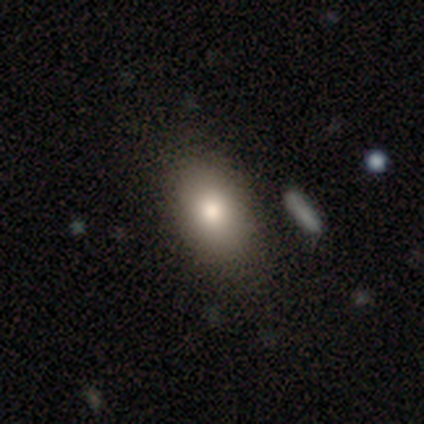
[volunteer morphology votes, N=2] A smooth galaxy with no disk features (50%, tied with featured or disk) that is in between round and cigar-shaped (100%). Merging: none (50%, tied with major disturbance).